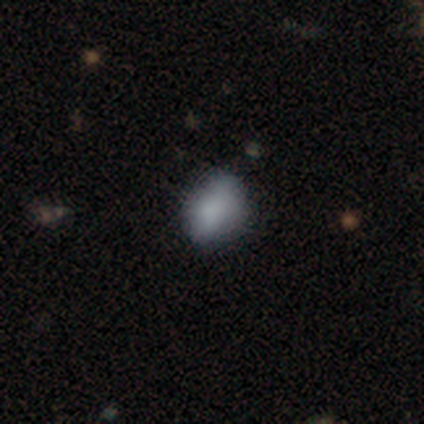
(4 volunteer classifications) Q: Smooth or featured?
A: smooth (75%); runner-up: featured or disk (25%)
Q: How rounded?
A: in between (100%)
Q: Merging?
A: minor disturbance (75%); runner-up: major disturbance (25%)